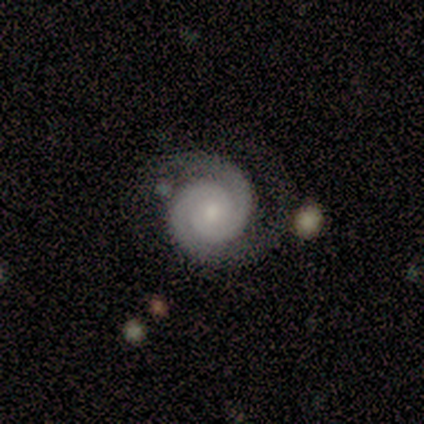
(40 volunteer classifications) smooth_or_featured: featured or disk (p=0.88) [alt: star or artifact p=0.07]
disk_edge_on: no (p=1.00)
bar: no (p=0.74) [alt: weak p=0.14]
has_spiral_arms: yes (p=1.00)
spiral_winding: tight (p=0.86) [alt: medium p=0.09]
spiral_arm_count: 2 (p=0.86) [alt: 1 p=0.06]
bulge_size: small (p=0.54) [alt: moderate p=0.34]
merging: none (p=0.76) [alt: minor disturbance p=0.14]